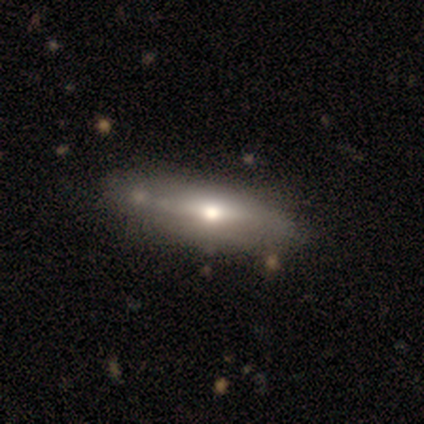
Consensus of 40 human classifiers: Smooth or featured?
  - smooth: 62% *
  - featured or disk: 38%
  - star or artifact: 0%
How rounded?
  - cigar-shaped: 56% *
  - in between: 44%
  - round: 0%
Merging?
  - none: 42% *
  - minor disturbance: 12%
  - major disturbance: 8%
  - merger: 8%